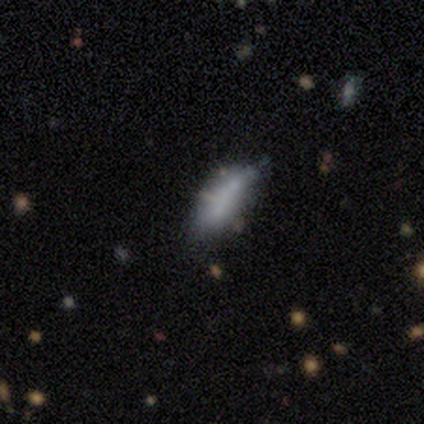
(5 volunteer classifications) smooth_or_featured: smooth (p=0.60) [alt: featured or disk p=0.20]
how_rounded: cigar-shaped (p=0.67) [alt: in between p=0.33]
merging: none (p=0.50) [alt: minor disturbance p=0.25]